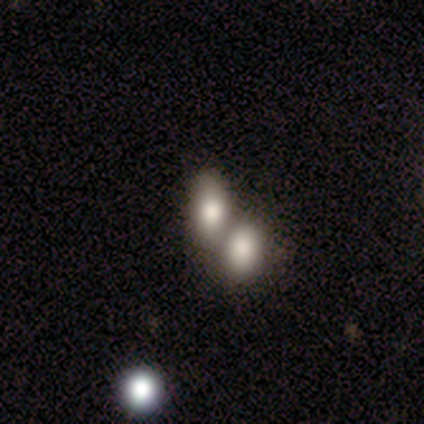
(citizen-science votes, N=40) smooth_or_featured: smooth (p=0.82) [alt: featured or disk p=0.10]
how_rounded: in between (p=0.88) [alt: round p=0.12]
merging: merger (p=0.68) [alt: none p=0.27]